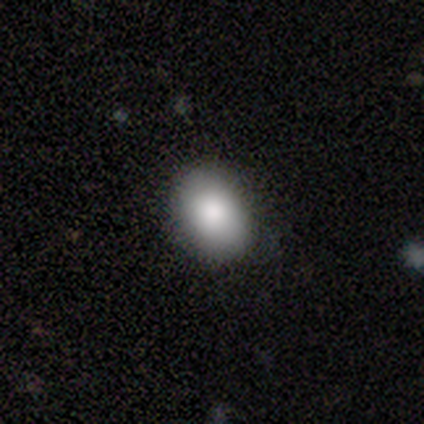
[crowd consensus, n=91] Volunteers were most divided on "how rounded": in between: 77%, round: 23%, cigar-shaped: 0%. More confident: smooth or featured — smooth (97%); merging — none (84%).